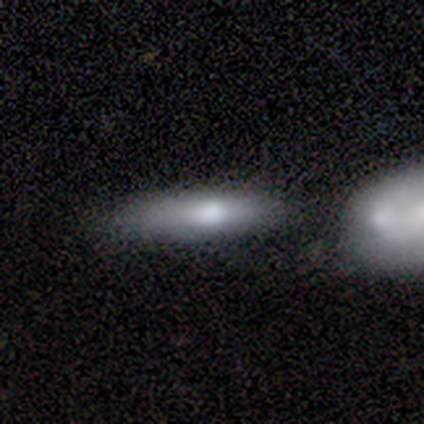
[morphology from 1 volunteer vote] A star or artifact, not a galaxy (100%).